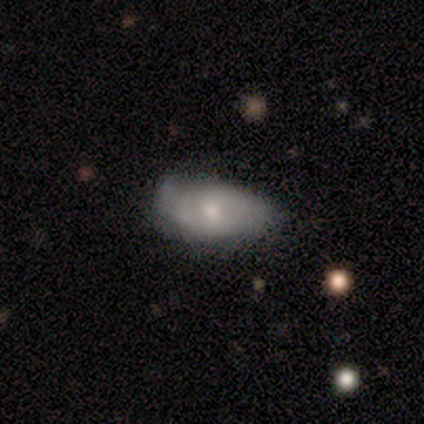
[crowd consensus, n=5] Volunteers were most divided on "smooth or featured": smooth: 60%, featured or disk: 40%, star or artifact: 0%. More confident: how rounded — in between (100%); merging — minor disturbance (60%).